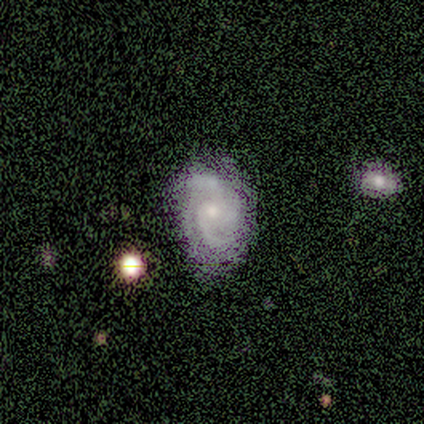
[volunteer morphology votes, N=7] This is clearly a featured or disk galaxy (86%). It is clearly not viewed edge-on (100%). Bar: clearly no (83%). Spiral arm pattern: clearly yes (100%). Spiral arm count: possibly 2 (50%). Spiral winding: possibly medium (50%). Central bulge: clearly small (83%). Merging: clearly none (100%).